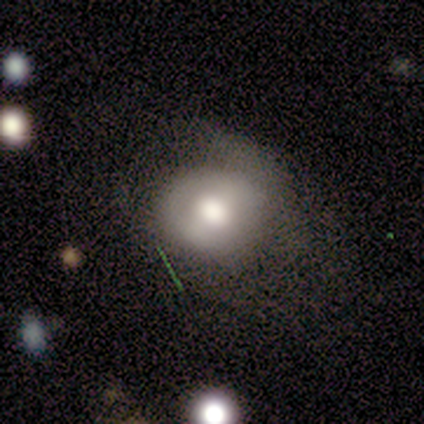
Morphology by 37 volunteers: smooth 70%, featured or disk 30%, star or artifact 0%. Down the decision tree: how rounded — round (62%); merging — none (38%, tied with minor disturbance).